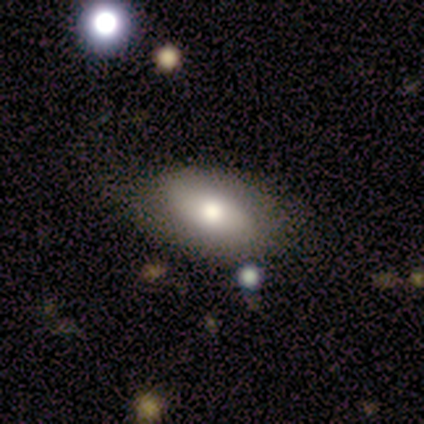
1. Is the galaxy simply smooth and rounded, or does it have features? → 50% smooth (tied), 50% featured or disk (tied), 0% star or artifact.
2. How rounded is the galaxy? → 100% in between, 0% round, 0% cigar-shaped.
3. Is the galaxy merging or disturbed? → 50% none, 25% minor disturbance, 25% merger, 0% major disturbance.